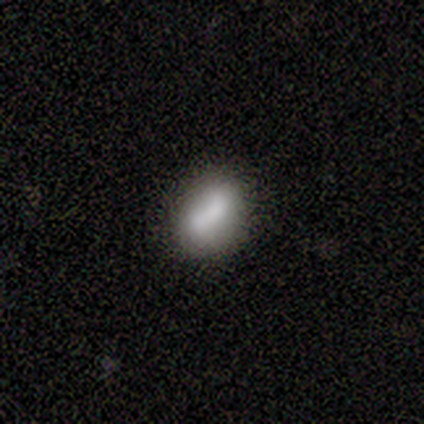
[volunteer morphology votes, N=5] Volunteers were most divided on "merging" (2-way tie): none: 40%, minor disturbance: 40%, merger: 20%, major disturbance: 0%. More confident: how rounded — in between (100%); smooth or featured — smooth (80%).